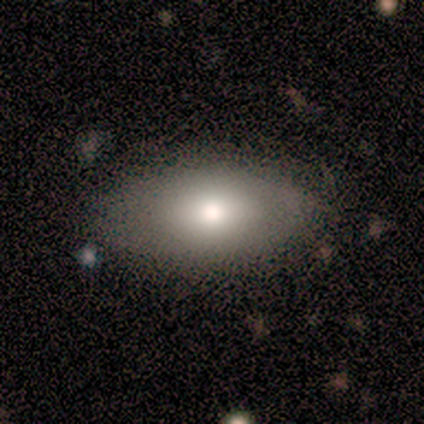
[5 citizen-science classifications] Overall: smooth (80%). How rounded: in between (75%). Merging: none (80%).